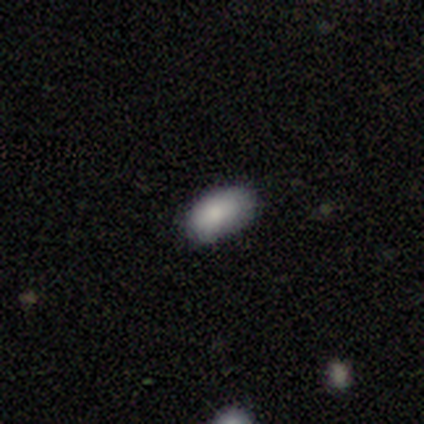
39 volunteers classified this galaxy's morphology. This appears to be a smooth galaxy with no disk features (92%) that is in between round and cigar-shaped (94%). Merging: none (56%).